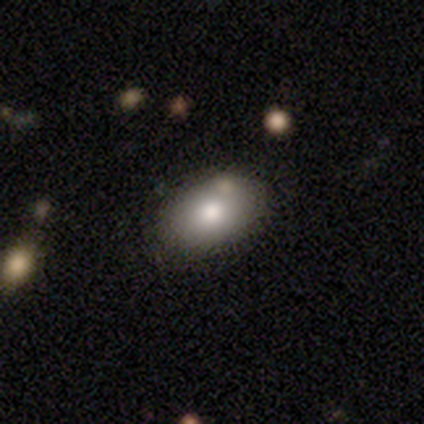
Smooth or featured? smooth (67%)
How rounded? in between (100%)
Merging? none (91%)